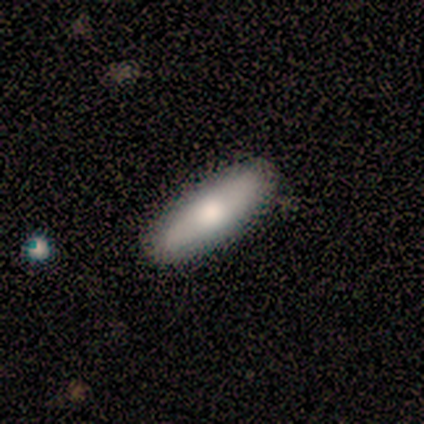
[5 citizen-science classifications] smooth-or-featured: smooth: 60% | featured or disk: 40% | star or artifact: 0%
  how-rounded: cigar-shaped: 100% | round: 0% | in between: 0%
  merging: none: 100% | minor disturbance: 0% | major disturbance: 0% | merger: 0%